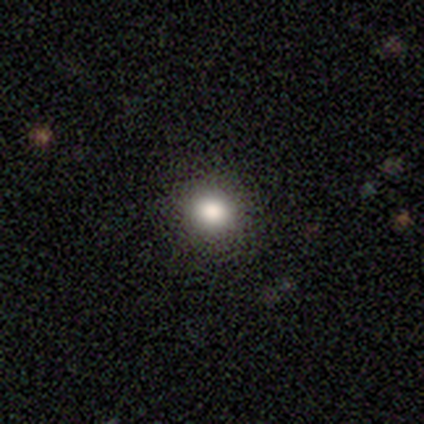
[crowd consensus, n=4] This appears to be a smooth galaxy with no disk features (100%) that is round (75%). Merging: none (100%).